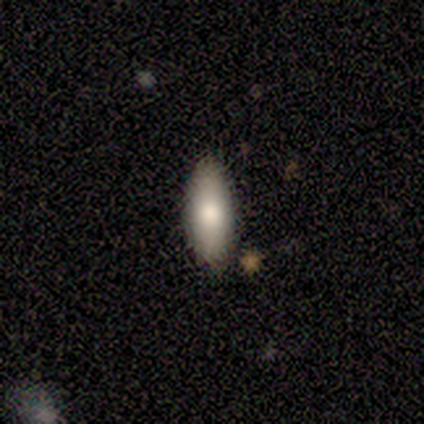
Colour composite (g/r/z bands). It shows a smooth galaxy with no disk features (74%) that is in between round and cigar-shaped (79%). Merging: none (86%).